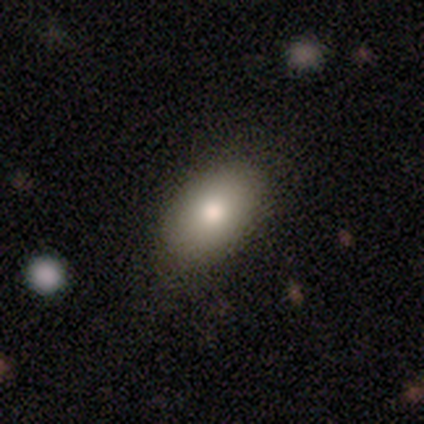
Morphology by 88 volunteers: A smooth galaxy with no disk features (82%) that is in between round and cigar-shaped (92%).

Vote fractions:
- Smooth or featured? smooth: 82% / featured or disk: 10% / star or artifact: 8%
- How rounded? in between: 92% / round: 8% / cigar-shaped: 0%
- Merging? none: 83% / minor disturbance: 15% / major disturbance: 2% / merger: 0%